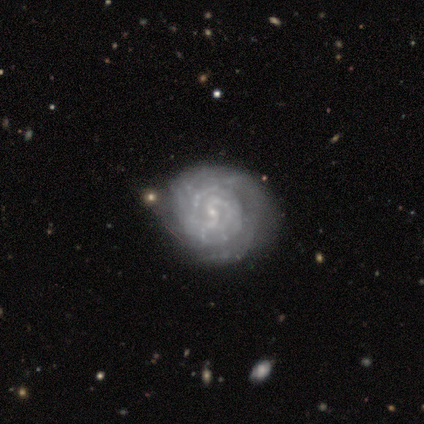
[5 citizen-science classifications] A featured or disk galaxy (80%) with no bar (100%), more than 4 (50%) tight (75%) spiral arms (100%) and a small central bulge (100%).

Vote fractions:
- Smooth or featured? featured or disk: 80% / star or artifact: 20% / smooth: 0%
- Edge-on disk? no: 100% / yes: 0%
- Bar? no: 100% / strong: 0% / weak: 0%
- Spiral arms? yes: 100% / no: 0%
- Spiral winding? tight: 75% / medium: 25% / loose: 0%
- Spiral arm count? more than 4: 50% / 1: 25% / 2: 25% / 3: 0% / 4: 0% / can't tell: 0%
- Bulge size? small: 100% / dominant: 0% / large: 0% / moderate: 0% / none: 0%
- Merging? none: 50% / minor disturbance: 25% / merger: 25% / major disturbance: 0%